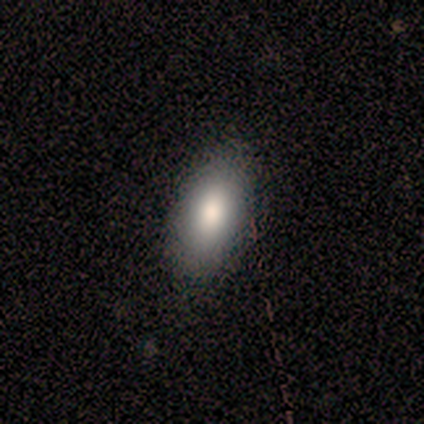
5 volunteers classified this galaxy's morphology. Volunteers were most divided on "merging": none: 60%, minor disturbance: 40%, major disturbance: 0%, merger: 0%. More confident: how rounded — in between (100%); smooth or featured — smooth (80%).